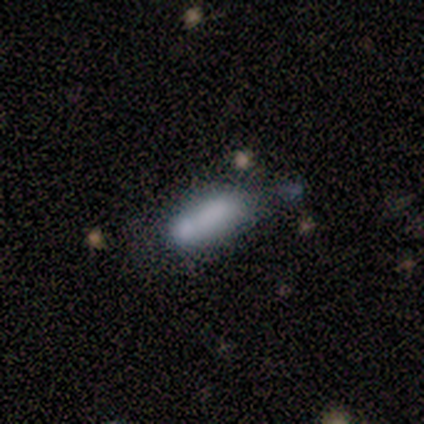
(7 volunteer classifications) Morphology: type=smooth (100%); roundness=in between (71%); merging=none (43%).